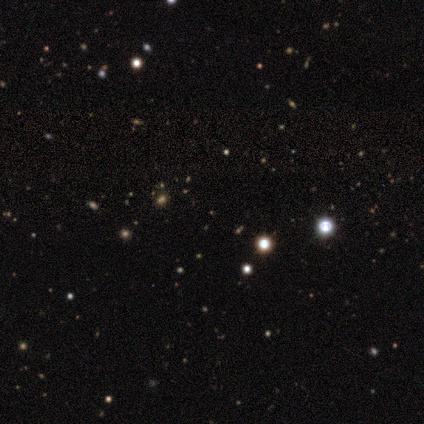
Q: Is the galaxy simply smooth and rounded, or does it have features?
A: star or artifact — 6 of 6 (100%).